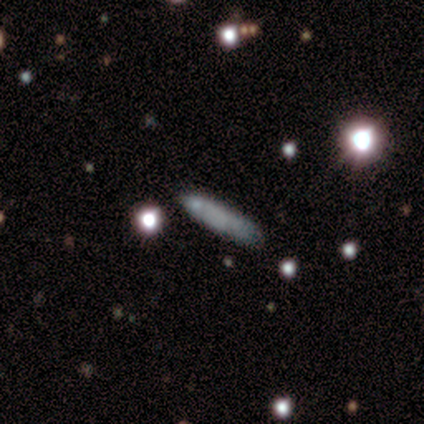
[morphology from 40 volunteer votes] This appears to be a smooth galaxy with no disk features (68%) that is cigar-shaped (93%). Merging: none (89%).